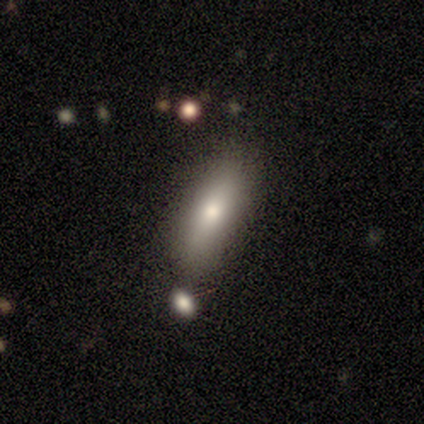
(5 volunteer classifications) Morphology: type=smooth (100%); roundness=in between (60%); merging=none (60%).